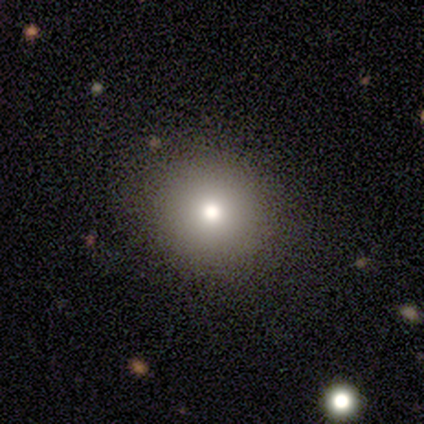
smooth_or_featured: smooth (p=0.57) [alt: star or artifact p=0.43]
how_rounded: round (p=0.75) [alt: in between p=0.25]
merging: none (p=1.00)